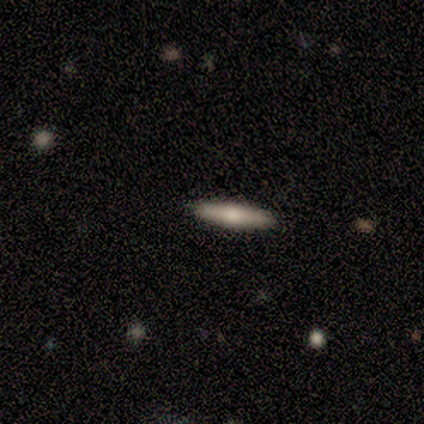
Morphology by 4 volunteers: smooth-or-featured: smooth: 50% (tied) | featured or disk: 50% (tied) | star or artifact: 0%
  how-rounded: cigar-shaped: 100% | round: 0% | in between: 0%
  merging: none: 75% | merger: 25% | minor disturbance: 0% | major disturbance: 0%